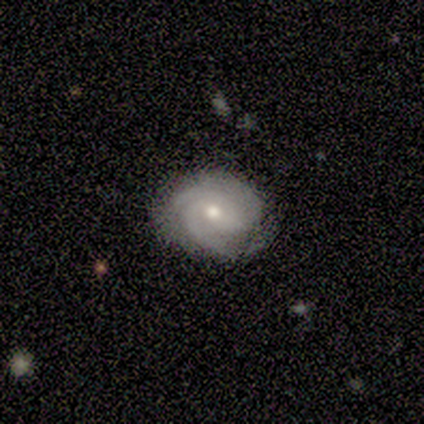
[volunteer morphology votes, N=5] A featured or disk galaxy (80%) with no bar (50%), 3 (50%) tight (75%) spiral arms (100%) and a moderate central bulge (50%, tied with small). Merging: none (100%).